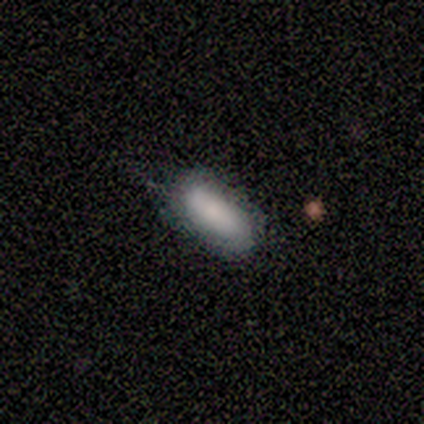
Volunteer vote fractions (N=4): Smooth or featured?
  - smooth: 75% *
  - featured or disk: 25%
  - star or artifact: 0%
How rounded?
  - in between: 100% *
  - round: 0%
  - cigar-shaped: 0%
Merging?
  - none: 75% *
  - minor disturbance: 25%
  - major disturbance: 0%
  - merger: 0%